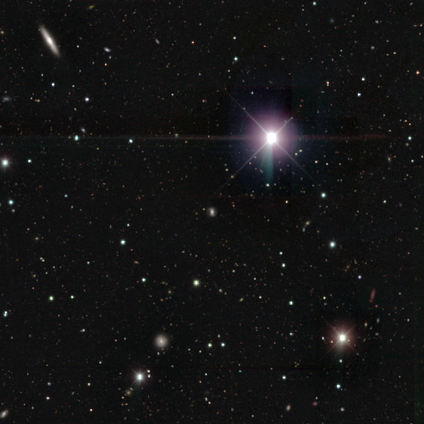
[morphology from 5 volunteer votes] star or artifact 60%, featured or disk 40%, smooth 0%.